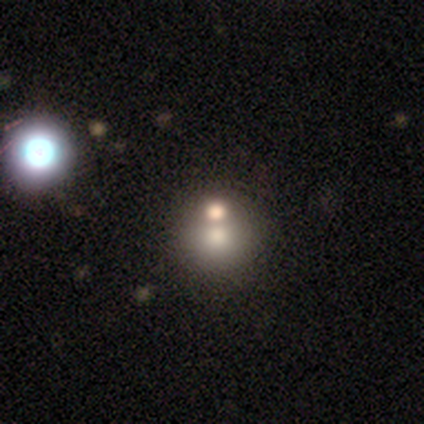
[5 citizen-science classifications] This appears to be a smooth galaxy with no disk features (80%) that is round (100%). Merging: none (75%).